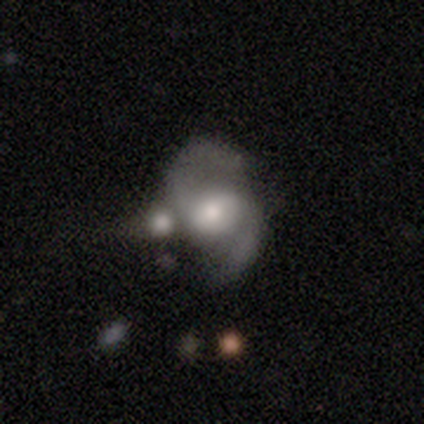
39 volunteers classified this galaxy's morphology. Smooth or featured? featured or disk (85%)
Edge-on disk? no (94%)
Bar? no (61%)
Spiral arms? yes (90%)
Spiral winding? medium (57%)
Spiral arm count? 2 (96%)
Bulge size? moderate (61%)
Merging? merger (55%)